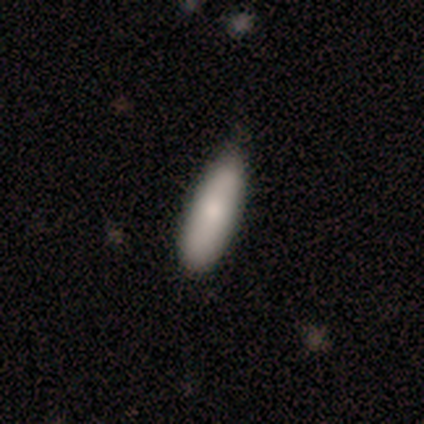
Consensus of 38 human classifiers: Smooth or featured?
  - smooth: 79% *
  - featured or disk: 18%
  - star or artifact: 3%
How rounded?
  - in between: 57% *
  - cigar-shaped: 40%
  - round: 3%
Merging?
  - none: 57% *
  - minor disturbance: 16%
  - major disturbance: 3%
  - merger: 3%